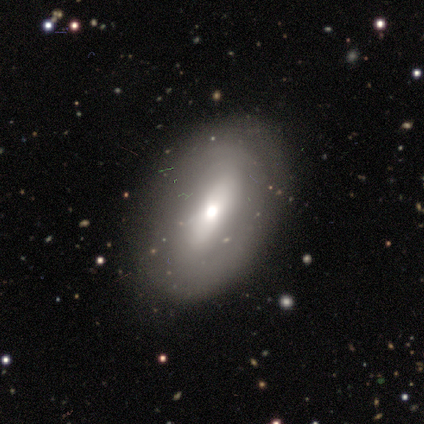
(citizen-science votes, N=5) A featured or disk galaxy (60%) with a weak bar (67%), no spiral arms (100%) and a large central bulge (33%, tied with moderate and small).

Vote fractions:
- Smooth or featured? featured or disk: 60% / smooth: 20% / star or artifact: 20%
- Edge-on disk? no: 100% / yes: 0%
- Bar? weak: 67% / no: 33% / strong: 0%
- Spiral arms? no: 100% / yes: 0%
- Bulge size? large: 33% (tied) / moderate: 33% (tied) / small: 33% (tied) / dominant: 0% / none: 0%
- Merging? none: 100% / minor disturbance: 0% / major disturbance: 0% / merger: 0%